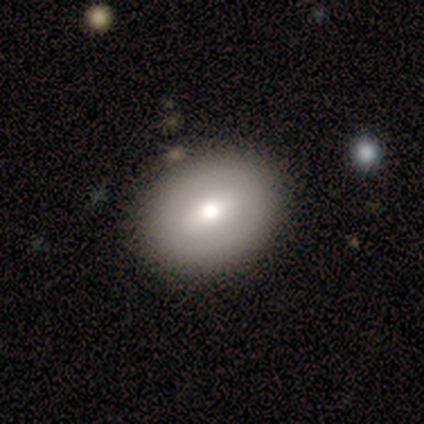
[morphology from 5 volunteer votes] Smooth or featured? smooth (80%)
How rounded? in between (75%)
Merging? none (100%)